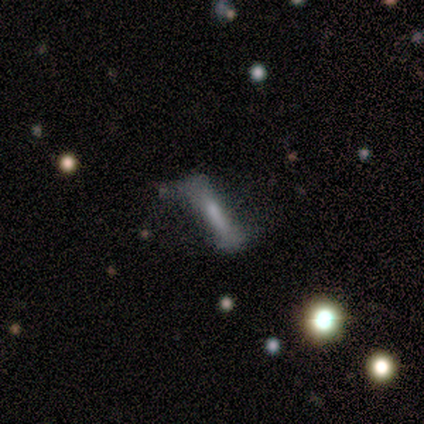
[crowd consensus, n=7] A featured or disk galaxy (86%) with a strong bar (80%), 2 (67%) loose (100%) spiral arms (60%) and no central bulge (40%).

Vote fractions:
- Smooth or featured? featured or disk: 86% / smooth: 14% / star or artifact: 0%
- Edge-on disk? no: 83% / yes: 17%
- Bar? strong: 80% / weak: 20% / no: 0%
- Spiral arms? yes: 60% / no: 40%
- Spiral winding? loose: 100% / tight: 0% / medium: 0%
- Spiral arm count? 2: 67% / can't tell: 33% / 1: 0% / 3: 0% / 4: 0% / more than 4: 0%
- Bulge size? none: 40% / large: 20% / moderate: 20% / small: 20% / dominant: 0%
- Merging? none: 57% / minor disturbance: 29% / major disturbance: 14% / merger: 0%